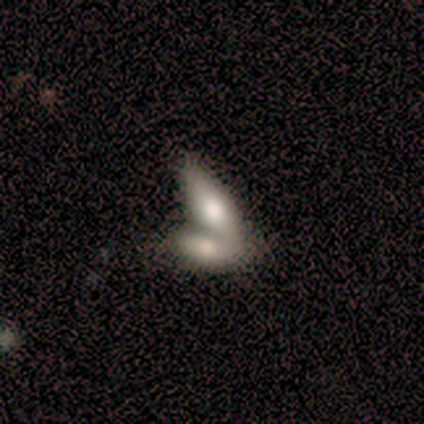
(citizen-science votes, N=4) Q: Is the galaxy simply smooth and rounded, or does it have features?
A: smooth — 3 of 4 (75%).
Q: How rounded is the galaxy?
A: in between — 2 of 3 (67%).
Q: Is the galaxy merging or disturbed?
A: none — 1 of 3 (33%, tied with minor disturbance and merger).